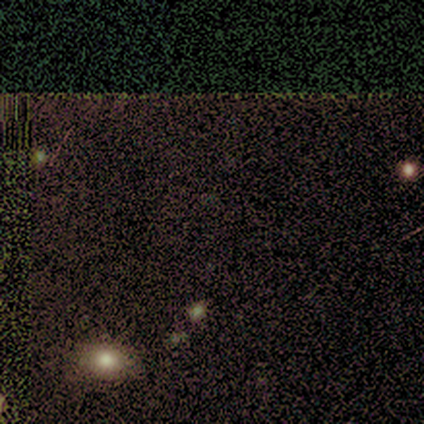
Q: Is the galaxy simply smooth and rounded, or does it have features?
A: star or artifact — 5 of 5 (100%).